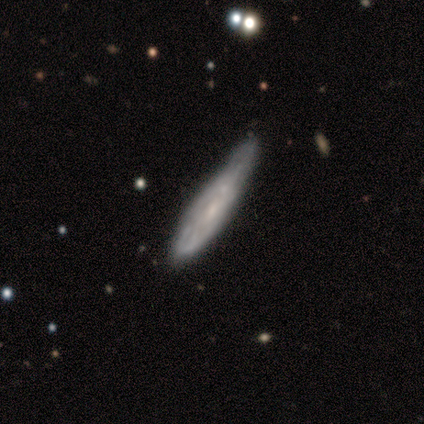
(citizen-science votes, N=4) Smooth or featured? 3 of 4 (75%) said featured or disk. Edge-on disk? 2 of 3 (67%) said no. Bar? 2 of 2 (100%) said no. Spiral arms? 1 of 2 (50%, tied with no) said yes. Spiral winding? 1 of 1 (100%) said tight. Spiral arm count? 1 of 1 (100%) said can't tell. Bulge size? 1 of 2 (50%, tied with none) said small. Merging? 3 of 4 (75%) said minor disturbance.